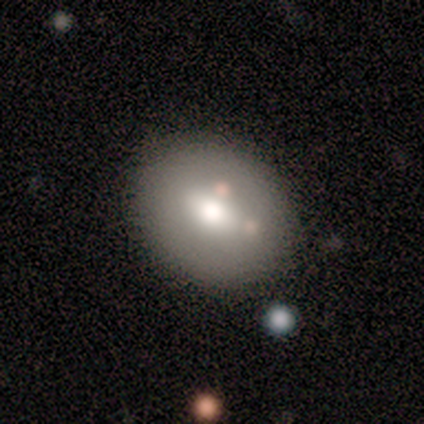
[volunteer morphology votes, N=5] Smooth or featured?
  - smooth: 100% *
  - featured or disk: 0%
  - star or artifact: 0%
How rounded?
  - round: 60% *
  - in between: 40%
  - cigar-shaped: 0%
Merging?
  - none: 80% *
  - minor disturbance: 20%
  - major disturbance: 0%
  - merger: 0%